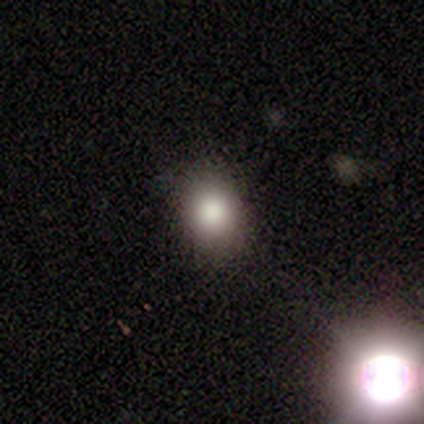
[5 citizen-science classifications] A smooth galaxy with no disk features (80%) that is round (75%).

Vote fractions:
- Smooth or featured? smooth: 80% / featured or disk: 20% / star or artifact: 0%
- How rounded? round: 75% / in between: 25% / cigar-shaped: 0%
- Merging? none: 100% / minor disturbance: 0% / major disturbance: 0% / merger: 0%